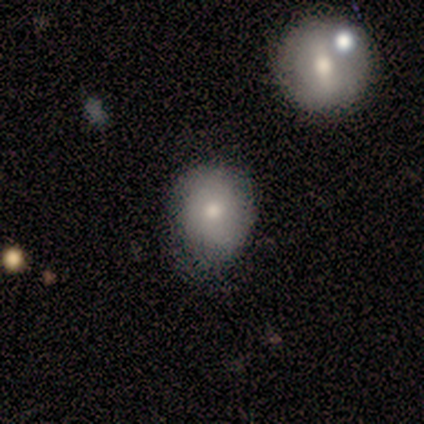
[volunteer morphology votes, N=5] smooth_or_featured: smooth (p=0.80) [alt: featured or disk p=0.20]
how_rounded: round (p=0.75) [alt: in between p=0.25]
merging: minor disturbance (p=0.60) [alt: none p=0.40]